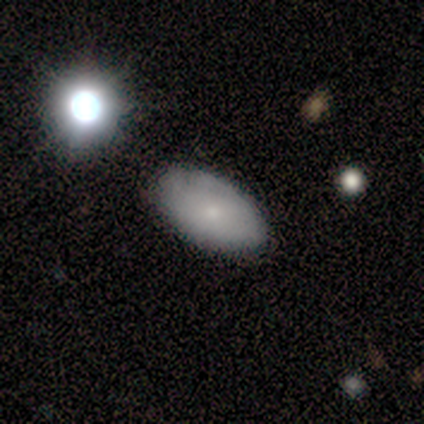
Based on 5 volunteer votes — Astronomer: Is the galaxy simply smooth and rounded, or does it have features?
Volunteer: smooth — 100%.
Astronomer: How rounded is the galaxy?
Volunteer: in between — 100%.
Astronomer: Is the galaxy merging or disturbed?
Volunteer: none — 80%.